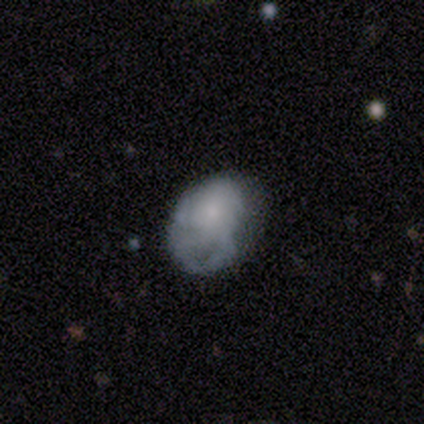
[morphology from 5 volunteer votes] type=smooth (60%); roundness=in between (67%); merging=minor disturbance (60%).